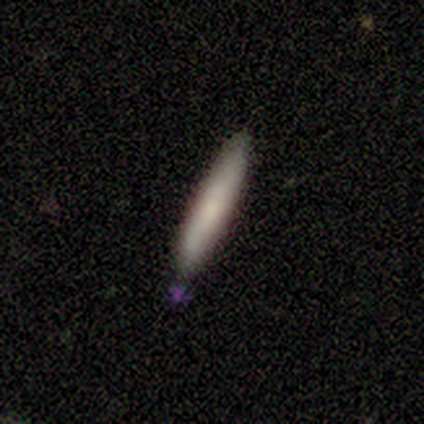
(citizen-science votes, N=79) Morphology: type=smooth (82%); roundness=cigar-shaped (95%); merging=none (40%).